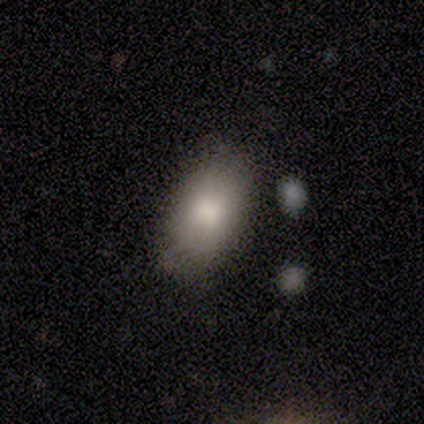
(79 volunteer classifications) This is clearly a smooth galaxy (90%). How rounded: clearly in between (96%). Merging: possibly none (51%).